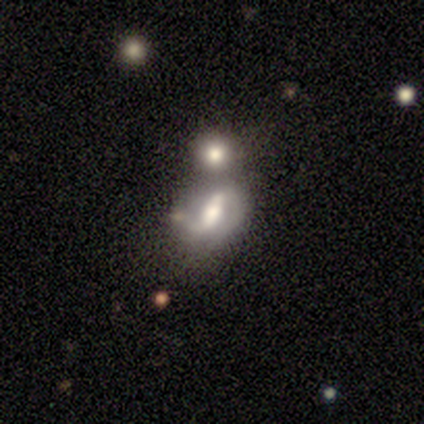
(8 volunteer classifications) smooth 50%, featured or disk 38%, star or artifact 12%. Down the decision tree: how rounded — round (50%, tied with in between); merging — none (57%).